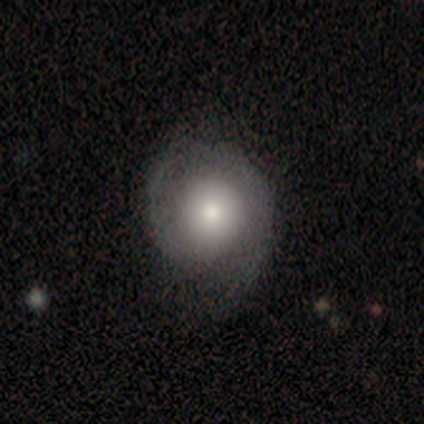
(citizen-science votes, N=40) smooth_or_featured: featured or disk (p=0.60) [alt: smooth p=0.40]
disk_edge_on: no (p=0.96) [alt: yes p=0.04]
bar: no (p=0.83) [alt: weak p=0.13]
has_spiral_arms: yes (p=0.78) [alt: no p=0.22]
spiral_winding: tight (p=0.44) [alt: medium p=0.39]
spiral_arm_count: 2 (p=0.78) [alt: 1 p=0.17]
bulge_size: moderate (p=0.61) [alt: large p=0.17]
merging: none (p=0.62) [alt: minor disturbance p=0.10]